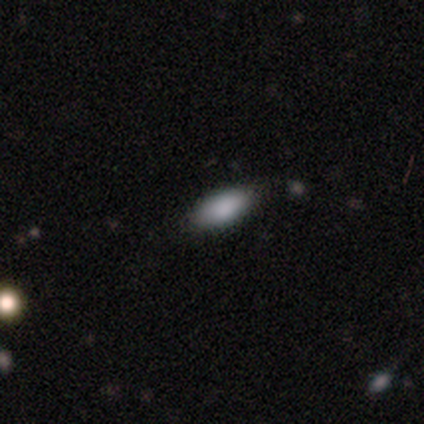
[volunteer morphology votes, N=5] smooth_or_featured: smooth (p=1.00)
how_rounded: in between (p=0.80) [alt: round p=0.20]
merging: none (p=0.60) [alt: minor disturbance p=0.40]